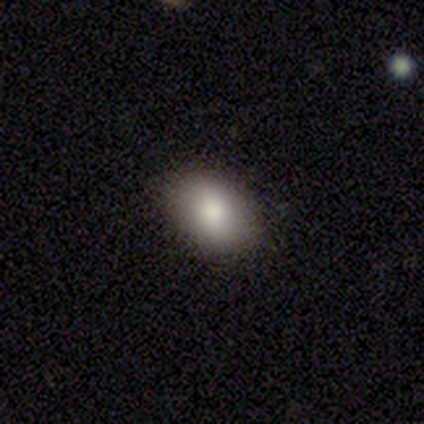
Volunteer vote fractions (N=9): Volunteers were most divided on "merging": none: 62%, minor disturbance: 25%, major disturbance: 12%, merger: 0%. More confident: how rounded — in between (100%); smooth or featured — smooth (67%).